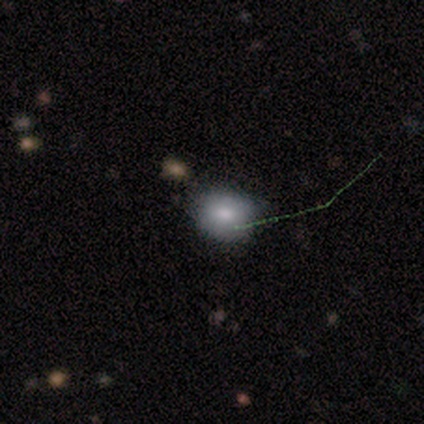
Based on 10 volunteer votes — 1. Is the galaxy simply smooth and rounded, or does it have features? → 60% smooth, 30% star or artifact, 10% featured or disk.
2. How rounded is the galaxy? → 50% round (tied), 50% in between (tied), 0% cigar-shaped.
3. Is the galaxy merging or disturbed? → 86% none, 14% minor disturbance, 0% major disturbance, 0% merger.